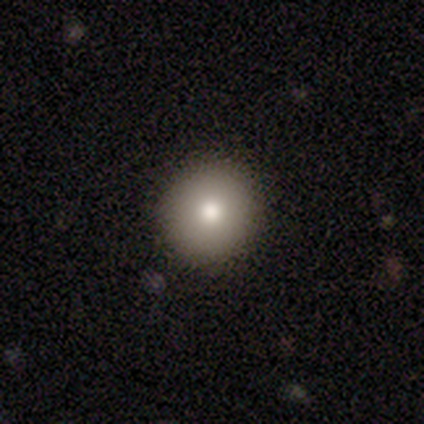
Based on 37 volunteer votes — Smooth or featured? smooth (86%)
How rounded? round (97%)
Merging? none (94%)